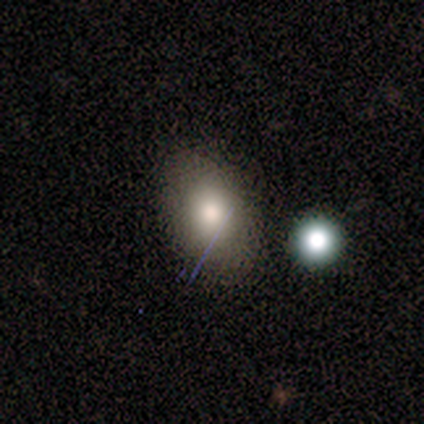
This appears to be a smooth galaxy with no disk features (50%) that is round (50%, tied with in between). Merging: none (100%).